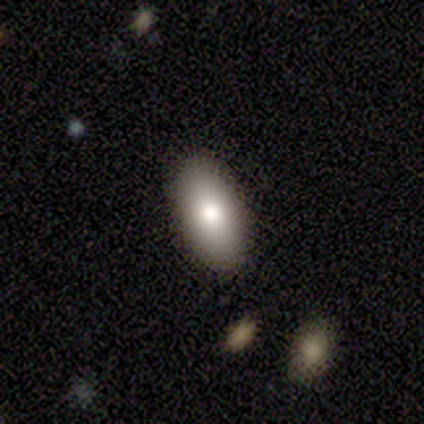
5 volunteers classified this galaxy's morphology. Q: Smooth or featured?
A: smooth (100%)
Q: How rounded?
A: in between (80%); runner-up: cigar-shaped (20%)
Q: Merging?
A: none (100%)